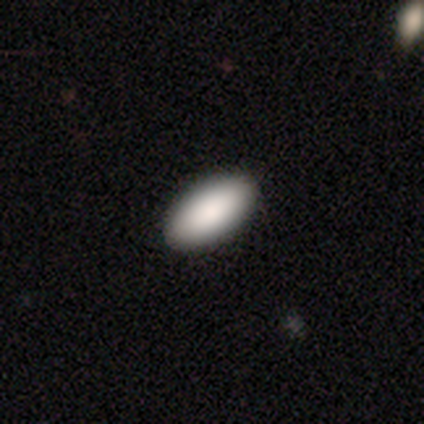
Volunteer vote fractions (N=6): Morphology: type=smooth (100%); roundness=in between (100%); merging=none (100%).